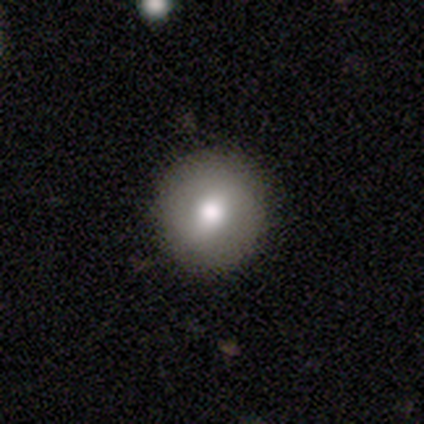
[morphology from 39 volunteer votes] Overall: smooth (74%). How rounded: round (97%). Merging: none (87%).